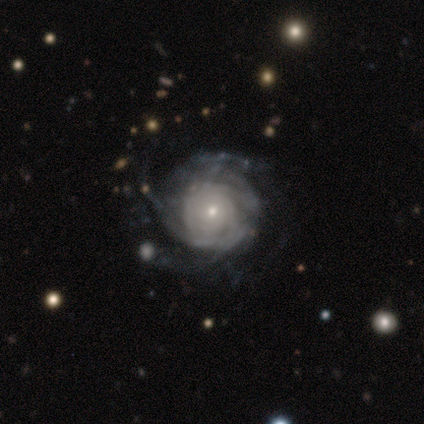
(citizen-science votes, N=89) Smooth or featured?
  - featured or disk: 92% *
  - smooth: 6%
  - star or artifact: 2%
Edge-on disk?
  - no: 98% *
  - yes: 2%
Bar?
  - no: 82% *
  - weak: 15%
  - strong: 2%
Spiral arms?
  - yes: 94% *
  - no: 6%
Spiral winding?
  - tight: 87% *
  - medium: 9%
  - loose: 4%
Spiral arm count?
  - can't tell: 51% *
  - more than 4: 17%
  - 3: 13%
  - 4: 12%
  - 2: 5%
  - 1: 1%
Bulge size?
  - small: 79% *
  - moderate: 18%
  - none: 2%
  - large: 1%
  - dominant: 0%
Merging?
  - none: 68% *
  - minor disturbance: 18%
  - major disturbance: 14%
  - merger: 0%